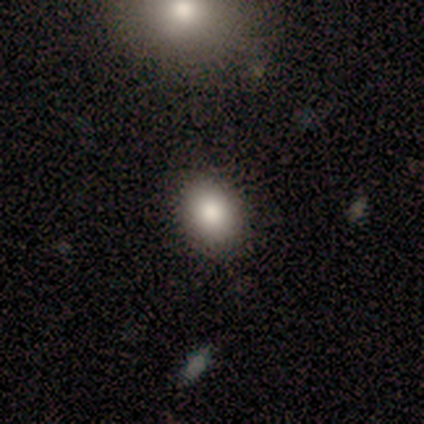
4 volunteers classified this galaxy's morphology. Smooth or featured? 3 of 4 (75%) said smooth. How rounded? 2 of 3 (67%) said in between. Merging? 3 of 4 (75%) said none.